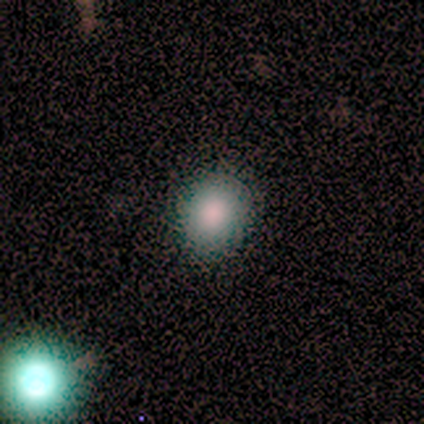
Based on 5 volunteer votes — A smooth galaxy with no disk features (60%) that is round (67%). Merging: none (100%).